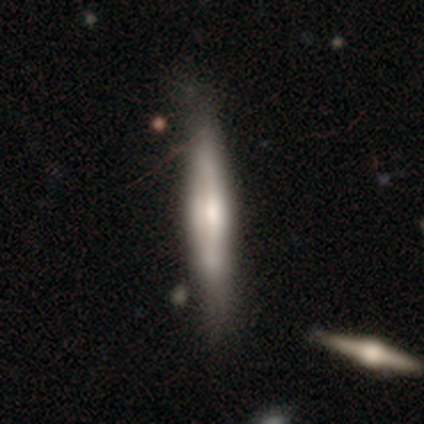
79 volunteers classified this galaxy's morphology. Smooth or featured? 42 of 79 (53%) said featured or disk. Edge-on disk? 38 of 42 (90%) said yes. Edge-on bulge? 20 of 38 (53%) said rounded. Merging? 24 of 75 (32%) said none.